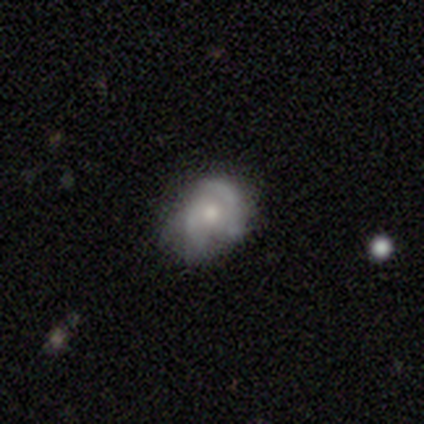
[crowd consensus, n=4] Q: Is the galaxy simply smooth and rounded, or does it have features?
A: featured or disk — 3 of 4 (75%).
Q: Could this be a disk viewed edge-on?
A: no — 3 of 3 (100%).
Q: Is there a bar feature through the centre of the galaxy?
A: no — 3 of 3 (100%).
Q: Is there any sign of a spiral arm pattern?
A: yes — 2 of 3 (67%).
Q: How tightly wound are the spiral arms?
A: medium — 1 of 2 (50%, tied with loose).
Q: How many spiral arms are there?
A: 2 — 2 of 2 (100%).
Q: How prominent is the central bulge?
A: moderate — 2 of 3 (67%).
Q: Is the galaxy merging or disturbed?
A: none — 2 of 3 (67%).